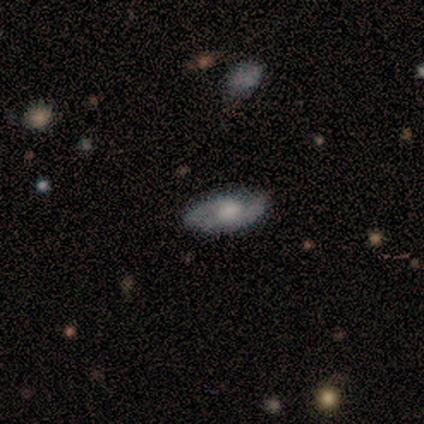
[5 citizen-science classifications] This appears to be a smooth galaxy with no disk features (40%, tied with featured or disk) that is in between round and cigar-shaped (100%). Merging: minor disturbance (75%).